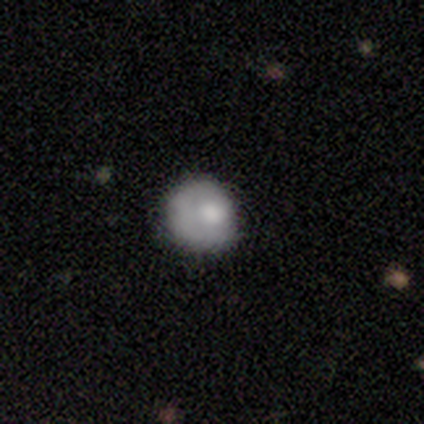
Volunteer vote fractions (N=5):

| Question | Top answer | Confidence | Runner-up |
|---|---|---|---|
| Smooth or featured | smooth | 80% | featured or disk (20%) |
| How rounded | round | 100% | — |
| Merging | none | 60% | minor disturbance (20%) |